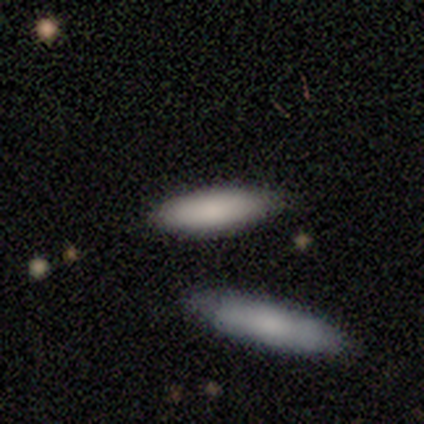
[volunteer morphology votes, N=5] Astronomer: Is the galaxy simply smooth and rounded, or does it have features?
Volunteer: smooth — 100%.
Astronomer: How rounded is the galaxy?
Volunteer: cigar-shaped — 60% (runner-up: in between, 40%).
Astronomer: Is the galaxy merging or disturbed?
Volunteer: merger — 40% (runner-up: none, 20%).